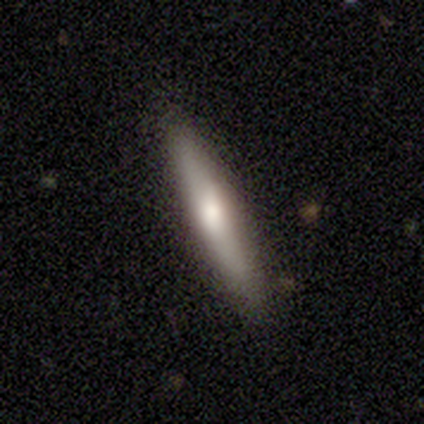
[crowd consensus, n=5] This is likely a featured or disk galaxy (60%). It is clearly viewed edge-on (100%). Edge-on bulge: likely rounded (67%). Merging: likely none (60%).